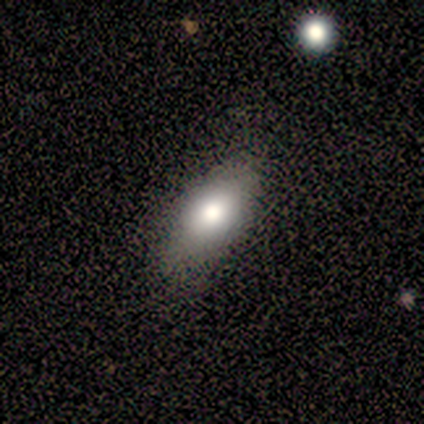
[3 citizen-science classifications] smooth 100%, featured or disk 0%, star or artifact 0%. Down the decision tree: how rounded — in between (100%); merging — none (100%).